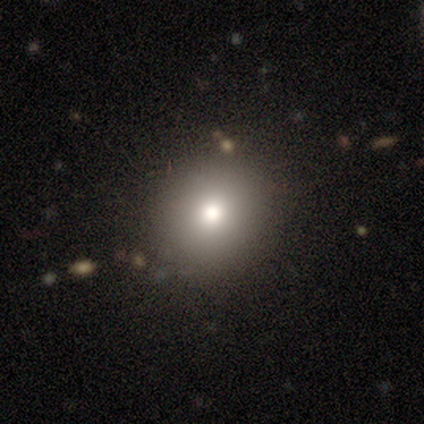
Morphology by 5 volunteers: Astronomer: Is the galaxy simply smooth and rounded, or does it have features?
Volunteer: smooth — 80%.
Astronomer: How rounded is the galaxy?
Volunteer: round — 100%.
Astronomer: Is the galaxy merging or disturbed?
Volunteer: none — 80%.